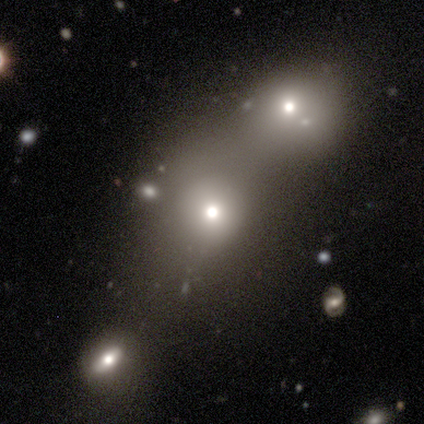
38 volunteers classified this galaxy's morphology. This appears to be a smooth galaxy with no disk features (74%) that is round (54%). Merging: merger (50%).